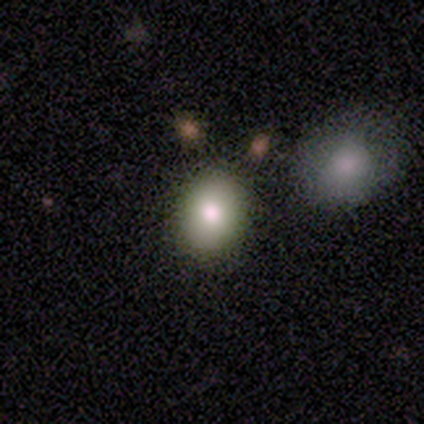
This is clearly a smooth galaxy (80%). How rounded: clearly in between (100%). Merging: clearly none (100%).